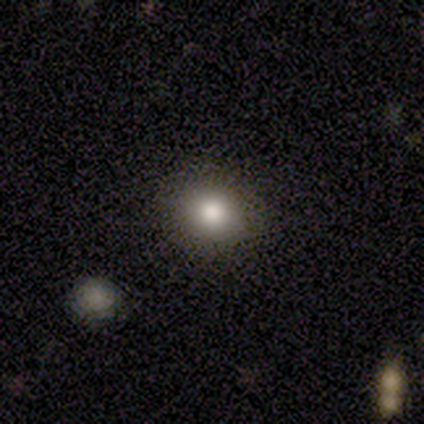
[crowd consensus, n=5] Smooth or featured?
  - smooth: 100% *
  - featured or disk: 0%
  - star or artifact: 0%
How rounded?
  - round: 80% *
  - in between: 20%
  - cigar-shaped: 0%
Merging?
  - none: 100% *
  - minor disturbance: 0%
  - major disturbance: 0%
  - merger: 0%